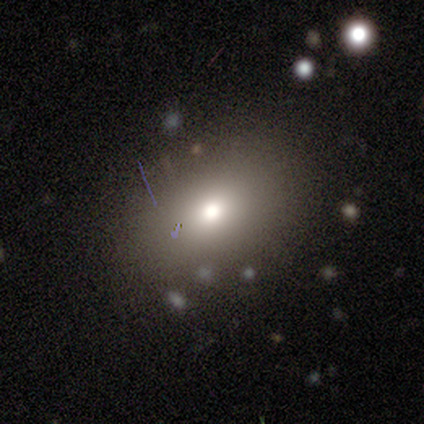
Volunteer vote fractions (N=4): Smooth or featured? 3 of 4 (75%) said smooth. How rounded? 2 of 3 (67%) said in between. Merging? 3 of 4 (75%) said none.